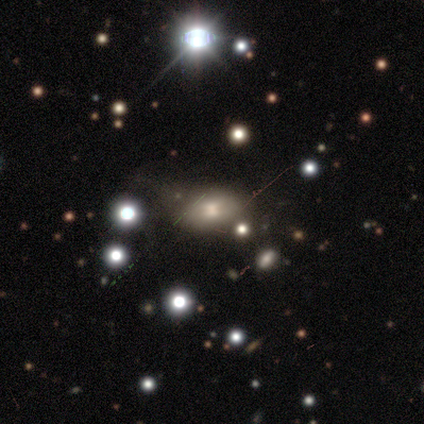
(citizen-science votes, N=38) A smooth galaxy with no disk features (58%) that is in between round and cigar-shaped (95%). Merging: none (53%).